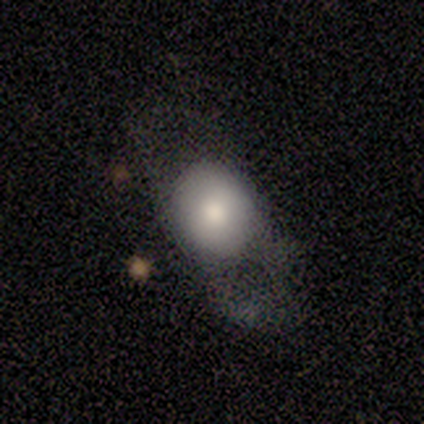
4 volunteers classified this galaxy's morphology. smooth_or_featured: smooth (p=0.75) [alt: featured or disk p=0.25]
how_rounded: in between (p=0.67) [alt: round p=0.33]
merging: none (p=0.50) [tied with: major disturbance p=0.50]